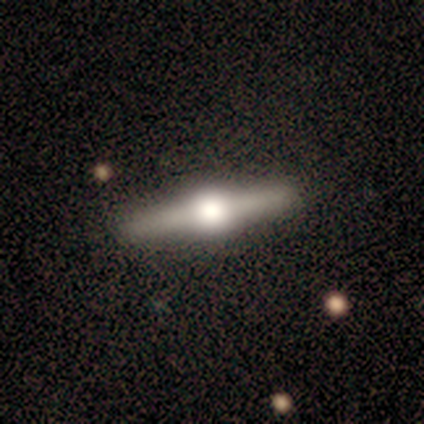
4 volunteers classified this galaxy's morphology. Smooth or featured?
  - featured or disk: 75% *
  - star or artifact: 25%
  - smooth: 0%
Edge-on disk?
  - yes: 100% *
  - no: 0%
Edge-on bulge?
  - rounded: 100% *
  - boxy: 0%
  - none: 0%
Merging?
  - none: 100% *
  - minor disturbance: 0%
  - major disturbance: 0%
  - merger: 0%